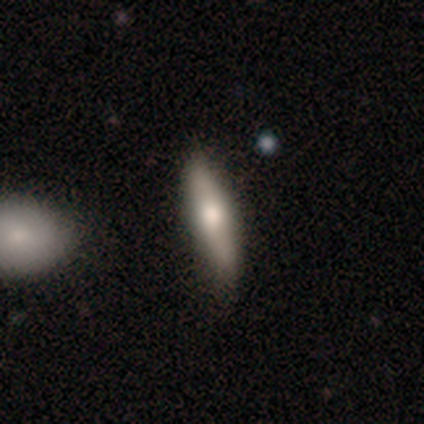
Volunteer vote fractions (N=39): This is possibly a smooth galaxy (56%). How rounded: likely cigar-shaped (73%). Merging: likely none (79%).